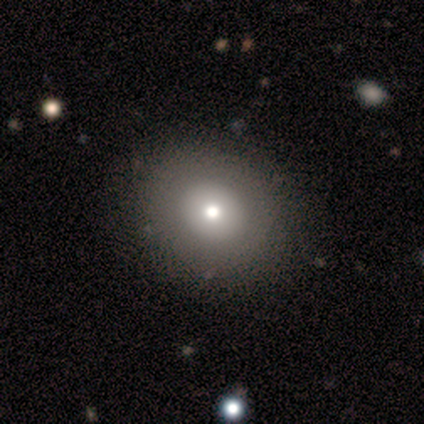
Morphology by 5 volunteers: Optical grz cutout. It shows a smooth galaxy with no disk features (60%) that is in between round and cigar-shaped (67%). Merging: none (75%).